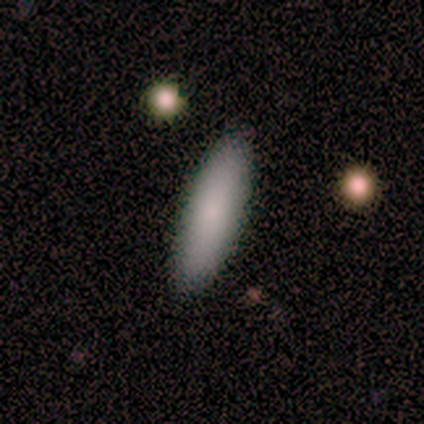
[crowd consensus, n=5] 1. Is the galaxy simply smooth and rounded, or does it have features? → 100% smooth, 0% featured or disk, 0% star or artifact.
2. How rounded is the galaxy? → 80% cigar-shaped, 20% in between, 0% round.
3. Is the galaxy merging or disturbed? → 80% none, 20% minor disturbance, 0% major disturbance, 0% merger.